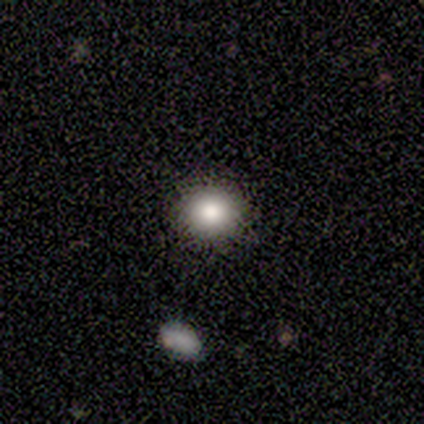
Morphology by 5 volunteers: smooth 100%, featured or disk 0%, star or artifact 0%. Down the decision tree: how rounded — round (80%); merging — none (100%).